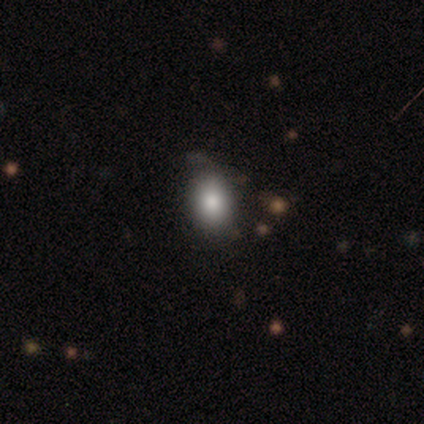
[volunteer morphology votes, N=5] smooth 100%, featured or disk 0%, star or artifact 0%. Down the decision tree: how rounded — in between (80%); merging — none (40%, tied with minor disturbance).